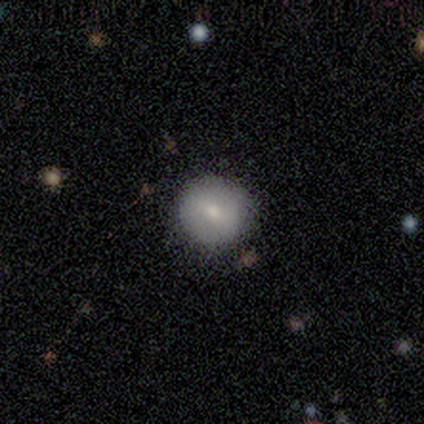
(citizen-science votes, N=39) Smooth or featured? 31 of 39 (79%) said smooth. How rounded? 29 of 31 (94%) said round. Merging? 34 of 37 (92%) said none.